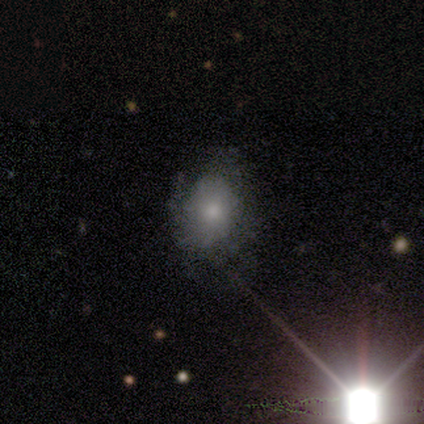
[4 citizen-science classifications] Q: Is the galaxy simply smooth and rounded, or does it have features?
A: smooth — 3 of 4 (75%).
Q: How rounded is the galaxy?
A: in between — 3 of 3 (100%).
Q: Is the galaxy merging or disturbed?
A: major disturbance — 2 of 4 (50%).